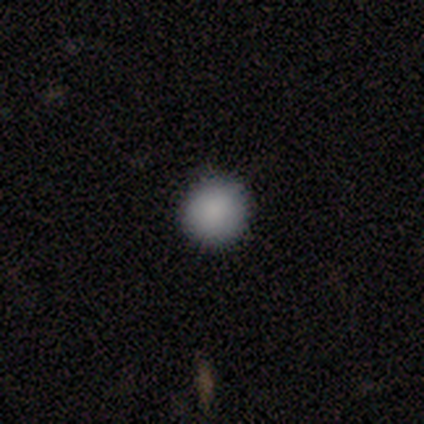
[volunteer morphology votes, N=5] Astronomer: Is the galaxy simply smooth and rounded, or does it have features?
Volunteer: smooth — 100%.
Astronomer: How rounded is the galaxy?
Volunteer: round — 100%.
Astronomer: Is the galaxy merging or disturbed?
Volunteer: none — 100%.